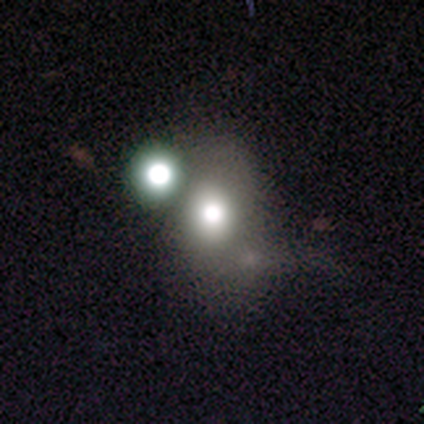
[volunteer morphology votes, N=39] smooth 67%, star or artifact 18%, featured or disk 15%. Down the decision tree: how rounded — in between (62%); merging — none (34%, tied with merger).